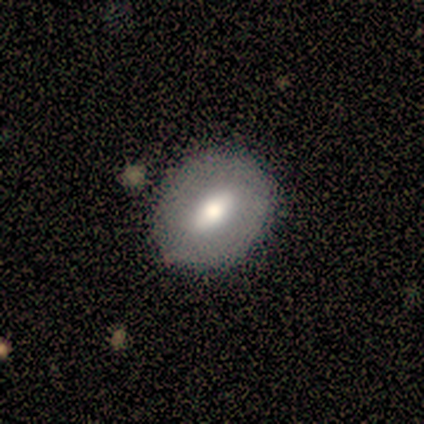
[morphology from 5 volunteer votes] type=featured or disk (60%); edge-on=no (100%); bar=strong (67%); spiral arms=no (100%); bulge=dominant (33%, tied with moderate and small); merging=none (100%).